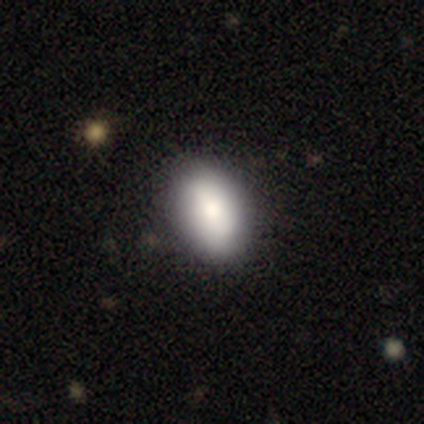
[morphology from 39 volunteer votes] smooth_or_featured: smooth (p=0.85) [alt: featured or disk p=0.15]
how_rounded: in between (p=0.94) [alt: round p=0.06]
merging: none (p=0.67) [alt: minor disturbance p=0.08]